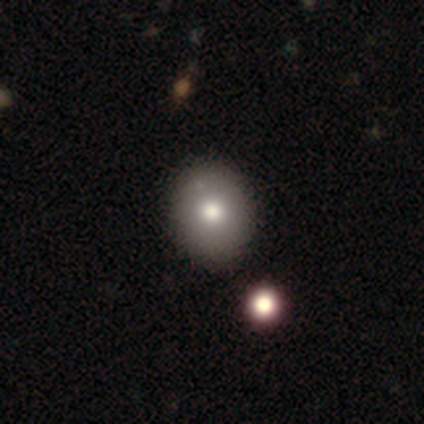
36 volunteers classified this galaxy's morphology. smooth 83%, featured or disk 14%, star or artifact 3%. Down the decision tree: how rounded — round (60%); merging — none (66%).